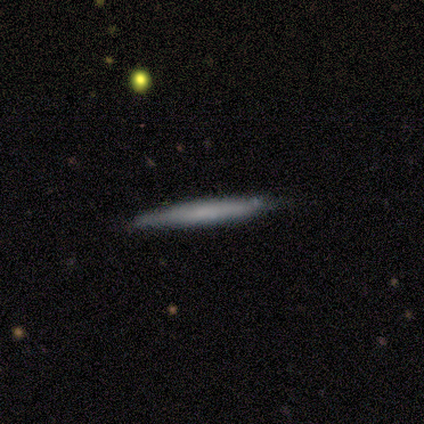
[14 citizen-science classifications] This is likely a smooth galaxy (64%). How rounded: clearly cigar-shaped (100%). Merging: likely none (71%).